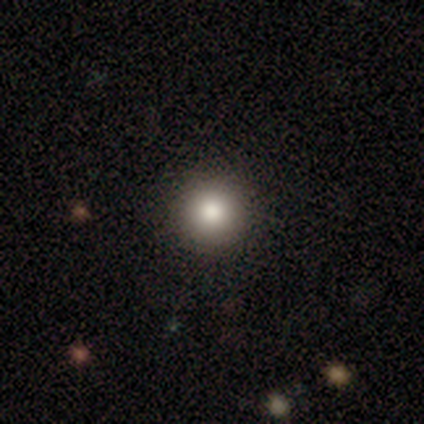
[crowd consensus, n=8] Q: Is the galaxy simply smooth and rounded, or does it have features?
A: smooth — 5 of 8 (62%).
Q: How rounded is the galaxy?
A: round — 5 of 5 (100%).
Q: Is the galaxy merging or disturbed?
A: none — 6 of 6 (100%).